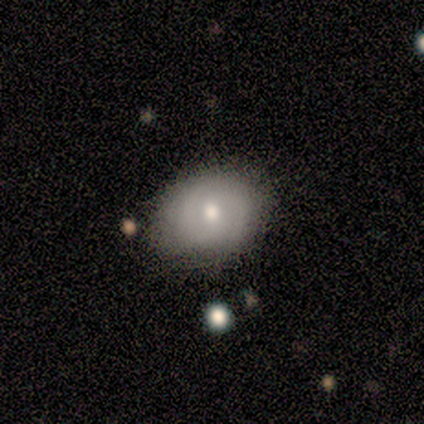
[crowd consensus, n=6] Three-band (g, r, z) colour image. It shows a featured or disk galaxy (67%) with no bar (75%), 3 (50%, tied with can't tell) medium (100%) spiral arms (50%, tied with no) and a moderate central bulge (50%, tied with small). Merging: none (83%).